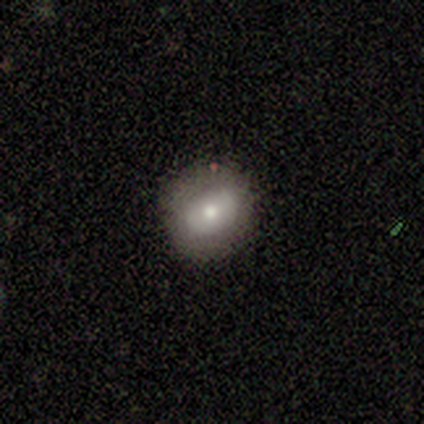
A smooth galaxy with no disk features (60%) that is round (67%). Merging: none (80%).